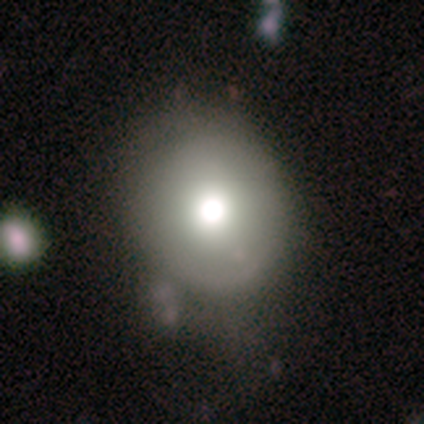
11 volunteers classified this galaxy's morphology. This is likely a smooth galaxy (73%). How rounded: likely round (75%). Merging: clearly none (82%).